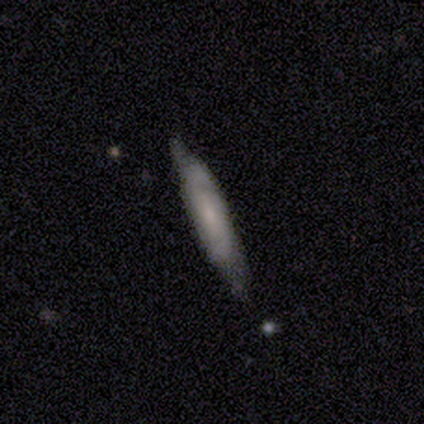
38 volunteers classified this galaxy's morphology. Q: Smooth or featured?
A: featured or disk (63%); runner-up: smooth (37%)
Q: Edge-on disk?
A: yes (58%); runner-up: no (42%)
Q: Edge-on bulge?
A: none (50%); runner-up: rounded (29%)
Q: Merging?
A: none (68%); runner-up: minor disturbance (24%)